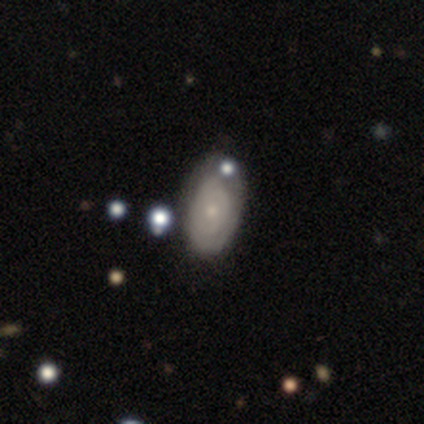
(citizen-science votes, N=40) smooth_or_featured: featured or disk (p=0.72) [alt: smooth p=0.23]
disk_edge_on: no (p=1.00)
bar: no (p=0.90) [alt: weak p=0.10]
has_spiral_arms: yes (p=0.62) [alt: no p=0.38]
spiral_winding: tight (p=0.83) [alt: medium p=0.11]
spiral_arm_count: can't tell (p=0.78) [alt: 2 p=0.22]
bulge_size: small (p=0.55) [alt: moderate p=0.38]
merging: none (p=0.66) [alt: minor disturbance p=0.18]